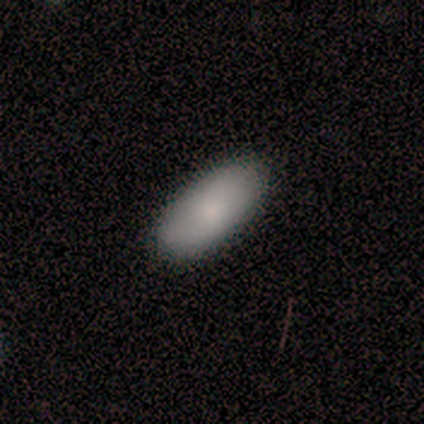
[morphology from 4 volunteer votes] This is likely a smooth galaxy (75%). How rounded: clearly in between (100%). Merging: clearly none (100%).